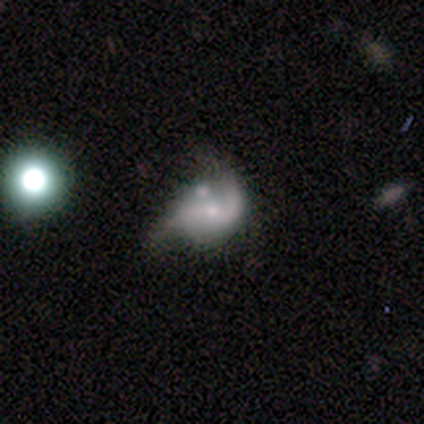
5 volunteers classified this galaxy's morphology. Smooth or featured? featured or disk (60%)
Edge-on disk? no (67%)
Bar? weak (50%, tied with no)
Spiral arms? yes (100%)
Spiral winding? tight (50%, tied with loose)
Spiral arm count? 1 (50%, tied with 2)
Bulge size? large (50%, tied with moderate)
Merging? merger (40%)